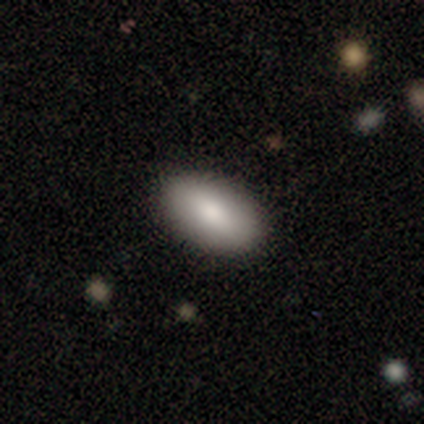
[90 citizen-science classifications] This is clearly a smooth galaxy (93%). How rounded: clearly in between (93%). Merging: clearly none (87%).